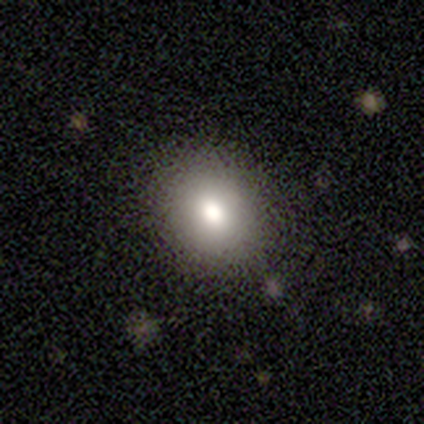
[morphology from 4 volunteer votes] type=smooth (100%); roundness=in between (75%); merging=none (100%).